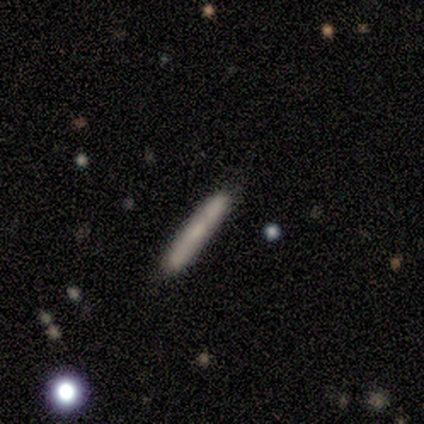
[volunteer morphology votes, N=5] This appears to be a smooth galaxy with no disk features (60%) that is cigar-shaped (100%). Merging: none (80%).